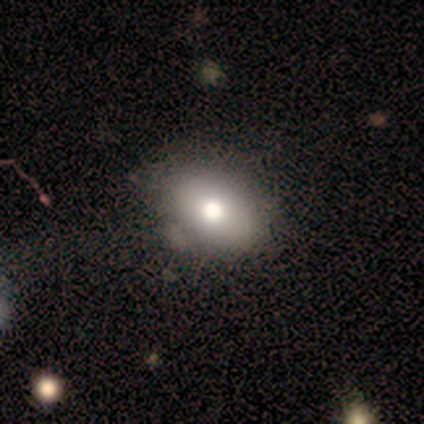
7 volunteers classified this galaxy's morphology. smooth 71%, featured or disk 14%, star or artifact 14%. Down the decision tree: how rounded — in between (80%); merging — none (67%).